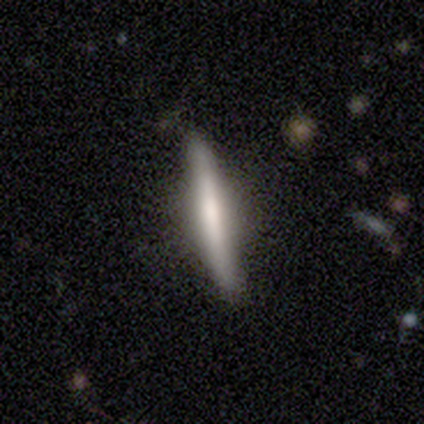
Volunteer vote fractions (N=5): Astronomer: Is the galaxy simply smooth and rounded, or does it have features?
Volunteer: featured or disk — 80%.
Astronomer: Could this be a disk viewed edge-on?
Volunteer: yes — 100%.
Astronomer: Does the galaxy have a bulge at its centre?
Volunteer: boxy — 50%, tied with rounded at 50%.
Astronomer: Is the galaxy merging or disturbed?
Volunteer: none — 60% (runner-up: minor disturbance, 40%).